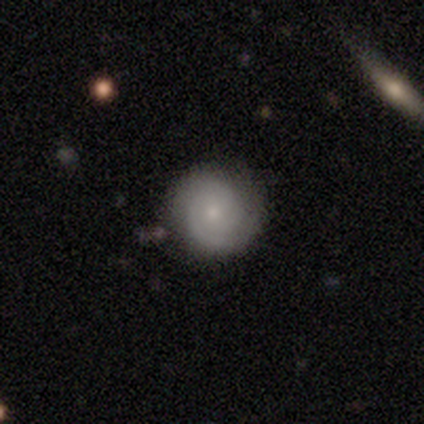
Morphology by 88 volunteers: Smooth or featured?
  - featured or disk: 53% *
  - smooth: 35%
  - star or artifact: 11%
Edge-on disk?
  - no: 91% *
  - yes: 9%
Bar?
  - no: 88% *
  - weak: 12%
  - strong: 0%
Spiral arms?
  - yes: 91% *
  - no: 9%
Spiral winding?
  - tight: 77% *
  - medium: 21%
  - loose: 3%
Spiral arm count?
  - 2: 38% *
  - 3: 31%
  - can't tell: 23%
  - 1: 5%
  - more than 4: 3%
  - 4: 0%
Bulge size?
  - small: 79% *
  - moderate: 19%
  - none: 2%
  - dominant: 0%
  - large: 0%
Merging?
  - none: 86% *
  - minor disturbance: 10%
  - major disturbance: 3%
  - merger: 1%